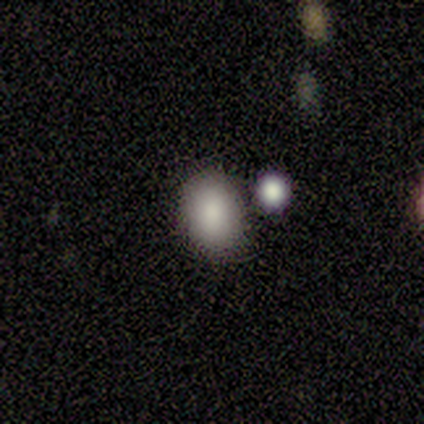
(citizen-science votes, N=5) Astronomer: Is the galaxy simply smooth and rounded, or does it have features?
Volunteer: smooth — 80%.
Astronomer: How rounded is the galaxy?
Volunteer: in between — 75%.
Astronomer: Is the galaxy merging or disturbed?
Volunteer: none — 75%.